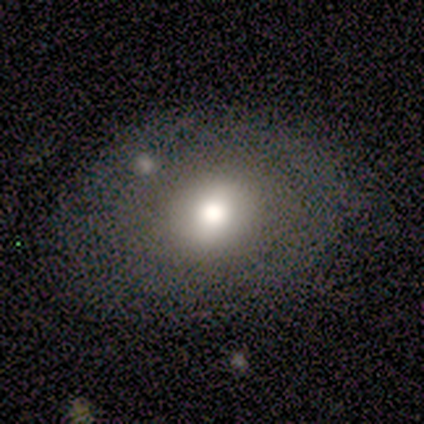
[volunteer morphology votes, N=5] This is likely a featured or disk galaxy (60%). It is clearly not viewed edge-on (100%). Bar: likely no (67%). Spiral arm pattern: clearly no (100%). Central bulge: clearly large (100%). Merging: likely none (60%).